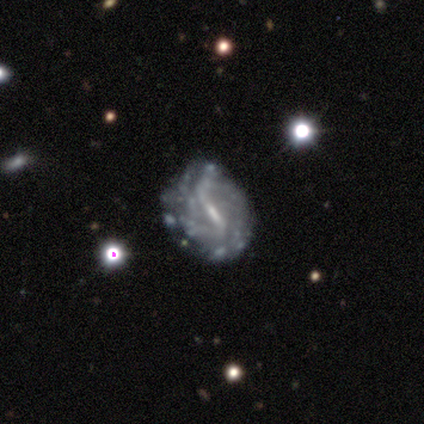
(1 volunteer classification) Q: Smooth or featured?
A: featured or disk (100%)
Q: Edge-on disk?
A: no (100%)
Q: Bar?
A: strong (100%)
Q: Spiral arms?
A: yes (100%)
Q: Spiral winding?
A: tight (100%)
Q: Spiral arm count?
A: can't tell (100%)
Q: Bulge size?
A: small (100%)
Q: Merging?
A: none (100%)